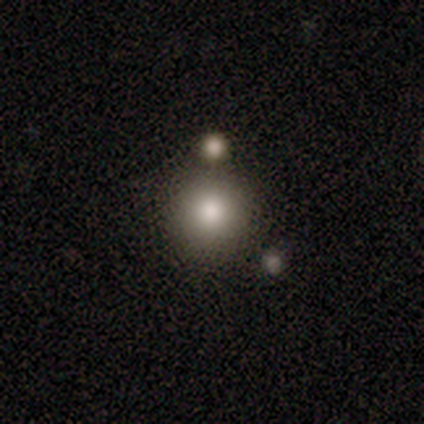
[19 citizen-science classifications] Q: Smooth or featured?
A: smooth (100%)
Q: How rounded?
A: round (89%); runner-up: in between (5%)
Q: Merging?
A: none (89%); runner-up: minor disturbance (5%)